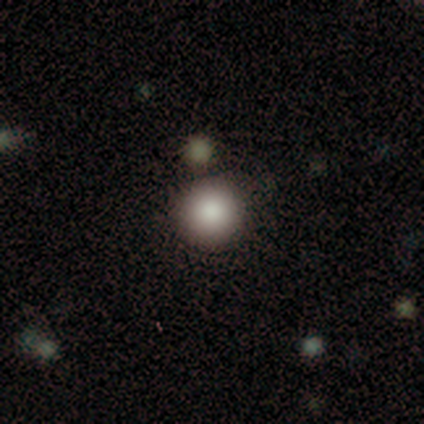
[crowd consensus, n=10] Volunteers were most divided on "smooth or featured": smooth: 90%, featured or disk: 10%, star or artifact: 0%. More confident: how rounded — round (100%); merging — none (90%).